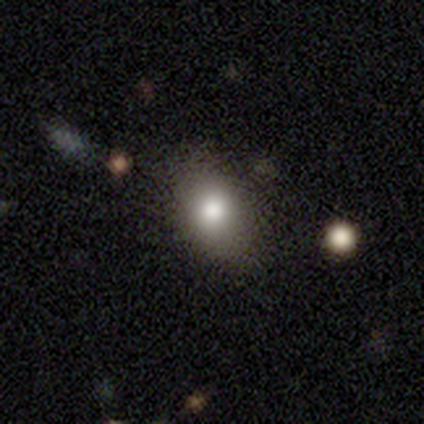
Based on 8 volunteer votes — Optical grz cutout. It shows a smooth galaxy with no disk features (75%) that is round (50%, tied with in between). Merging: none (57%).